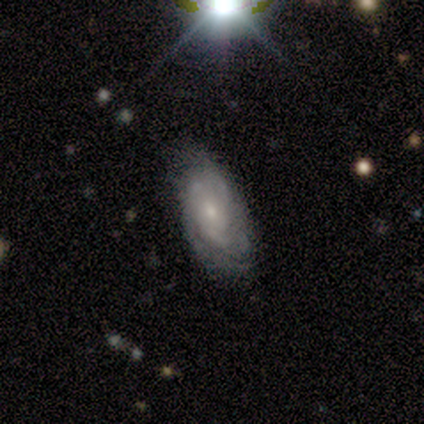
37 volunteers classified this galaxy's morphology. A featured or disk galaxy (65%) with no bar (70%), tight (71%) spiral arms (91%) and a small central bulge (70%). Merging: none (67%).